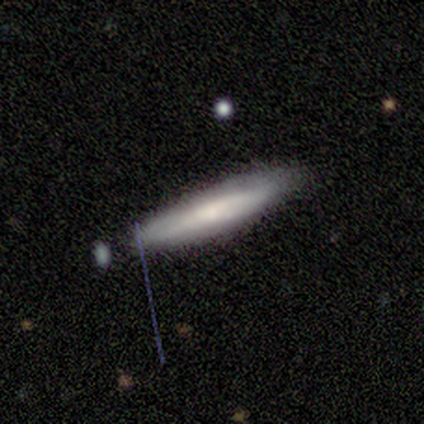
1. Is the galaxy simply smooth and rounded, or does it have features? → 75% smooth, 25% featured or disk, 0% star or artifact.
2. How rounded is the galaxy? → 67% cigar-shaped, 33% in between, 0% round.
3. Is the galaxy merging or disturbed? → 100% none, 0% minor disturbance, 0% major disturbance, 0% merger.